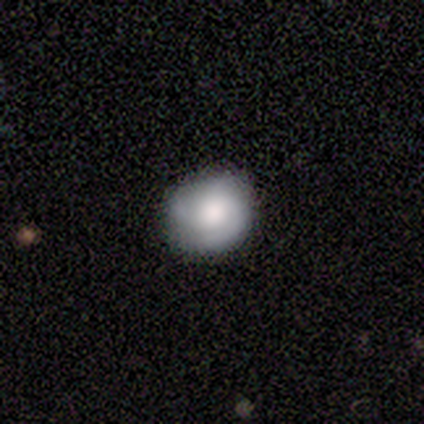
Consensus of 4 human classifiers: smooth-or-featured: smooth: 50% (tied) | featured or disk: 50% (tied) | star or artifact: 0%
  how-rounded: round: 100% | in between: 0% | cigar-shaped: 0%
  merging: none: 75% | minor disturbance: 25% | major disturbance: 0% | merger: 0%